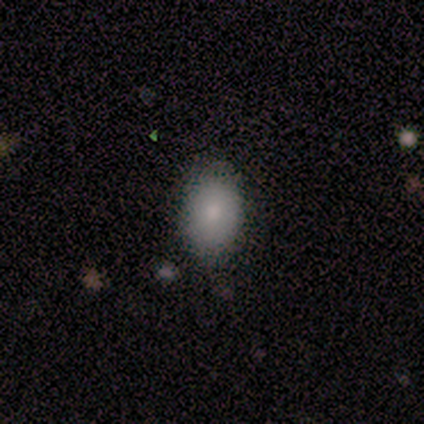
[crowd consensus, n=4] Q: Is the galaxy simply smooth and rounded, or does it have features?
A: smooth — 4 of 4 (100%).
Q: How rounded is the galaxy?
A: in between — 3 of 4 (75%).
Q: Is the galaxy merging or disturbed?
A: none — 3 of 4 (75%).